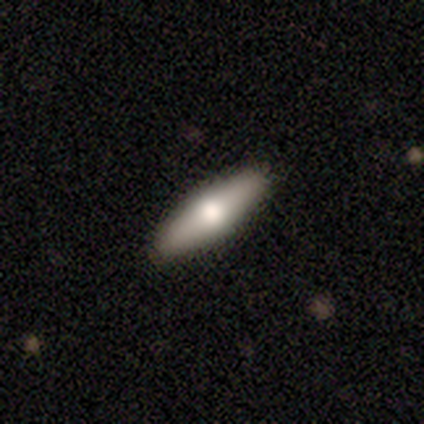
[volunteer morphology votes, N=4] Smooth or featured: smooth — 50% (tied with featured or disk — 50%)
How rounded: cigar-shaped — 100%
Merging: none — 100%